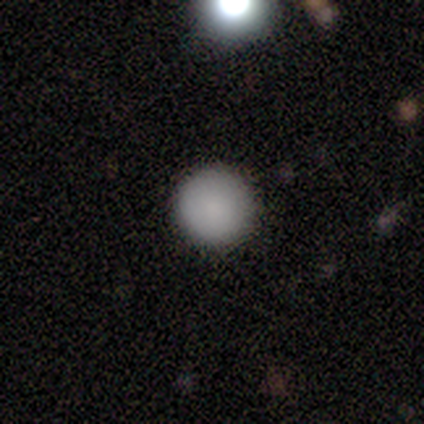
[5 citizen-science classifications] Smooth or featured? 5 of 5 (100%) said smooth. How rounded? 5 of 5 (100%) said round. Merging? 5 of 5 (100%) said none.